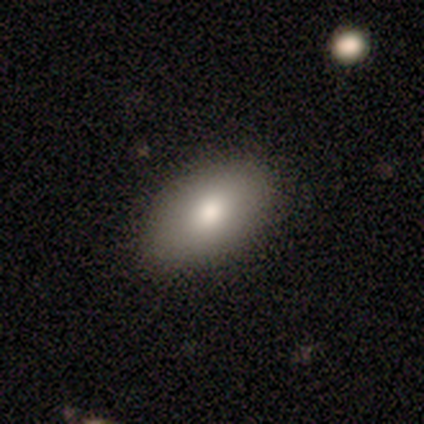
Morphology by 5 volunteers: smooth-or-featured: smooth: 60% | star or artifact: 40% | featured or disk: 0%
  how-rounded: in between: 100% | round: 0% | cigar-shaped: 0%
  merging: none: 100% | minor disturbance: 0% | major disturbance: 0% | merger: 0%